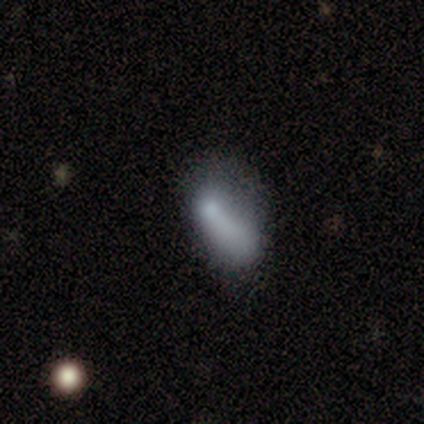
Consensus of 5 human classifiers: Smooth or featured: smooth — 60% (featured or disk — 40%)
How rounded: in between — 100%
Merging: none — 40% (tied with minor disturbance — 40%)